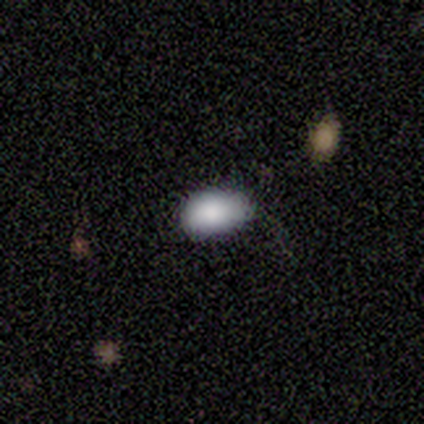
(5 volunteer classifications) Smooth or featured?
  - smooth: 80% *
  - star or artifact: 20%
  - featured or disk: 0%
How rounded?
  - in between: 75% *
  - cigar-shaped: 25%
  - round: 0%
Merging?
  - none: 75% *
  - major disturbance: 25%
  - minor disturbance: 0%
  - merger: 0%